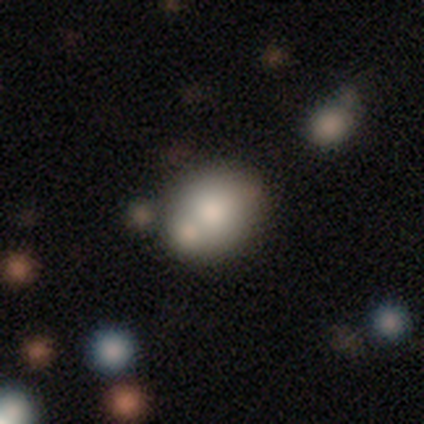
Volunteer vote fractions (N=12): smooth 67%, featured or disk 17%, star or artifact 17%. Down the decision tree: how rounded — round (62%); merging — none (90%).